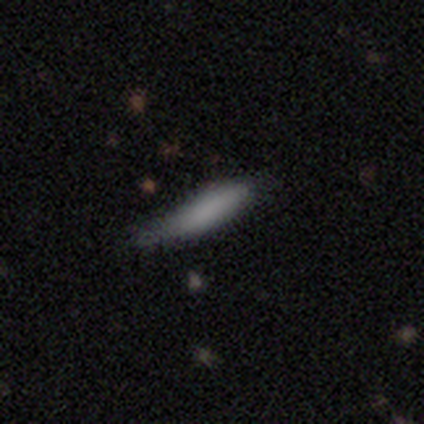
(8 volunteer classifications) This is clearly a smooth galaxy (100%). How rounded: clearly cigar-shaped (88%). Merging: possibly none (50%).